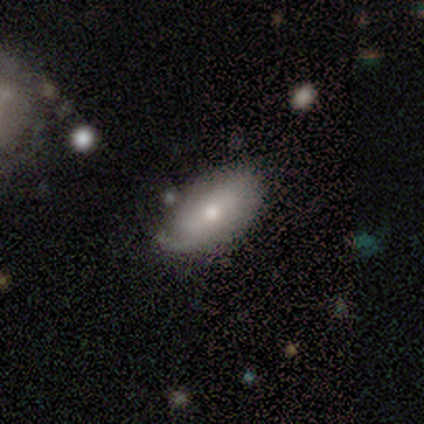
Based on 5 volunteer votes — smooth_or_featured: smooth (p=0.80) [alt: featured or disk p=0.20]
how_rounded: in between (p=1.00)
merging: none (p=0.80) [alt: minor disturbance p=0.20]